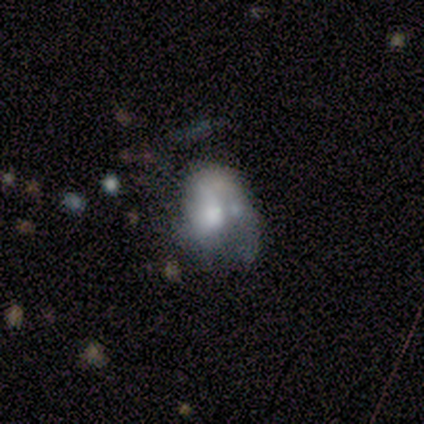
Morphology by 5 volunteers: Smooth or featured? 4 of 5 (80%) said featured or disk. Edge-on disk? 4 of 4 (100%) said no. Bar? 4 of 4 (100%) said no. Spiral arms? 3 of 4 (75%) said no. Bulge size? 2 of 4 (50%) said large. Merging? 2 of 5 (40%, tied with merger) said none.